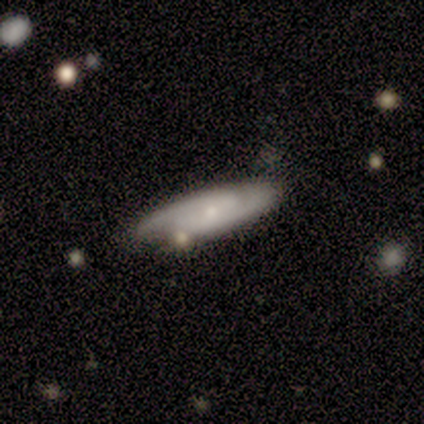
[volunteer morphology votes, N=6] A smooth galaxy with no disk features (50%, tied with featured or disk) that is cigar-shaped (67%). Merging: none (67%).